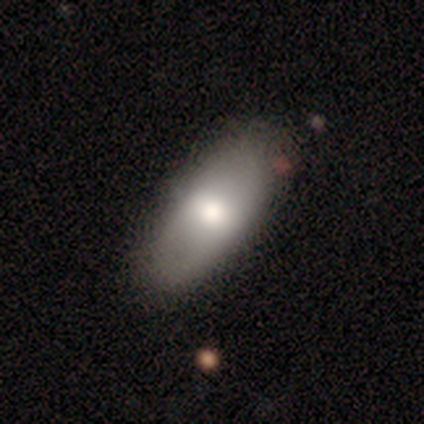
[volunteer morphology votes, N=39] This is likely a smooth galaxy (64%). How rounded: clearly in between (92%). Merging: clearly none (82%).